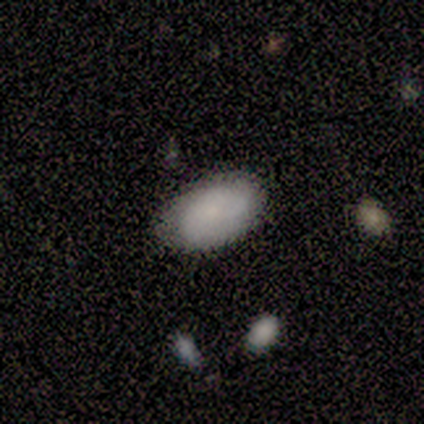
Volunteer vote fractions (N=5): smooth-or-featured: smooth: 80% | featured or disk: 20% | star or artifact: 0%
  how-rounded: in between: 100% | round: 0% | cigar-shaped: 0%
  merging: none: 100% | minor disturbance: 0% | major disturbance: 0% | merger: 0%